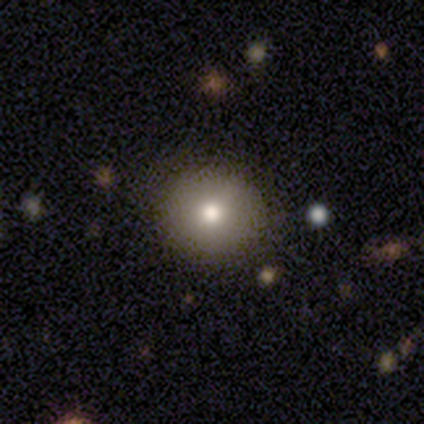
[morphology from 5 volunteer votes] Smooth or featured: smooth — 100%
How rounded: round — 60% (in between — 40%)
Merging: none — 100%